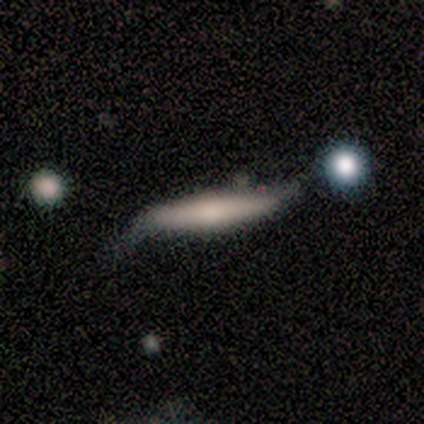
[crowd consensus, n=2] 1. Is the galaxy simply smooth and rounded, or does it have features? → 50% smooth (tied), 50% featured or disk (tied), 0% star or artifact.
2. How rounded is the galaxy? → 100% cigar-shaped, 0% round, 0% in between.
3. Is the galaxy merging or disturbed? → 50% none (tied), 50% minor disturbance (tied), 0% major disturbance, 0% merger.